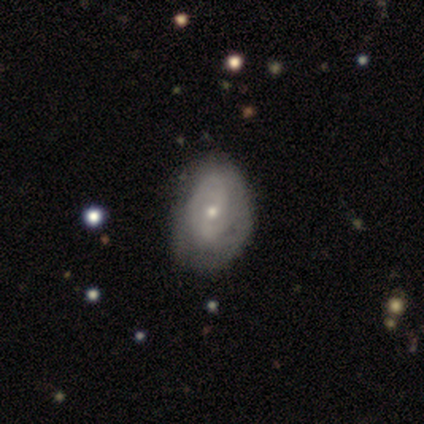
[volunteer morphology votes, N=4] type=featured or disk (75%); edge-on=no (100%); bar=no (100%); spiral arms=yes (67%); winding=tight (50%, tied with loose); arm count=1 (50%, tied with can't tell); bulge=small (67%); merging=minor disturbance (67%).